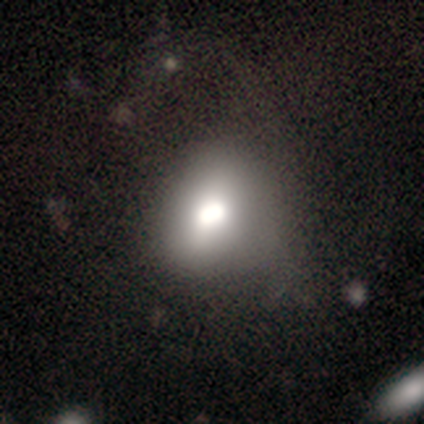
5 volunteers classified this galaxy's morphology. This is clearly a smooth galaxy (80%). How rounded: clearly in between (100%). Merging: likely none (60%).